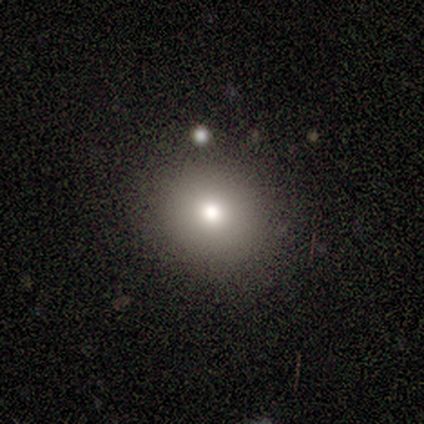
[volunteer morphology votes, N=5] smooth_or_featured: smooth (p=1.00)
how_rounded: round (p=0.80) [alt: in between p=0.20]
merging: none (p=0.80) [alt: minor disturbance p=0.20]